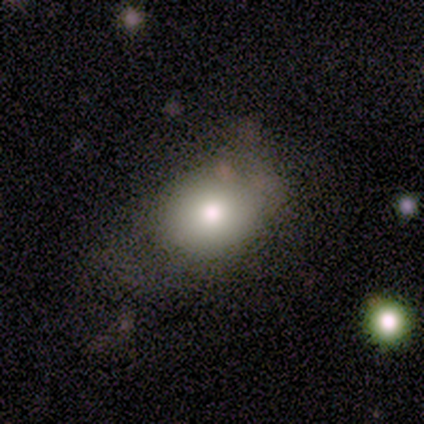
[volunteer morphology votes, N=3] Q: Smooth or featured?
A: smooth (33%); tied with: featured or disk (33%); star or artifact (33%)
Q: How rounded?
A: round (100%)
Q: Merging?
A: minor disturbance (50%); tied with: merger (50%)